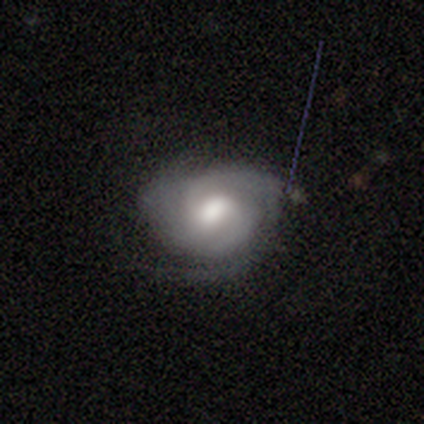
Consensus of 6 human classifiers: Morphology: type=featured or disk (100%); edge-on=no (100%); bar=no (50%); spiral arms=yes (100%); winding=tight (67%); arm count=2 (50%); bulge=moderate (50%); merging=none (67%).